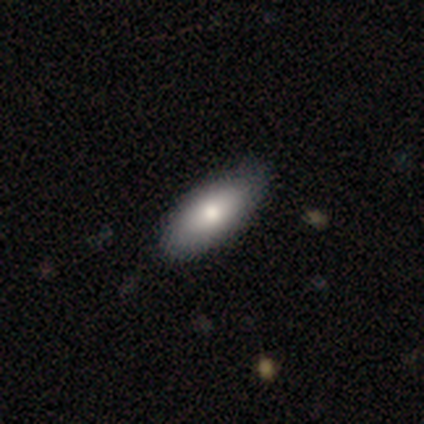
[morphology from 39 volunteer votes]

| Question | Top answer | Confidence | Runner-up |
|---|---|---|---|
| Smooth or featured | smooth | 79% | featured or disk (15%) |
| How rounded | in between | 90% | cigar-shaped (10%) |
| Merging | none | 54% | minor disturbance (5%) |